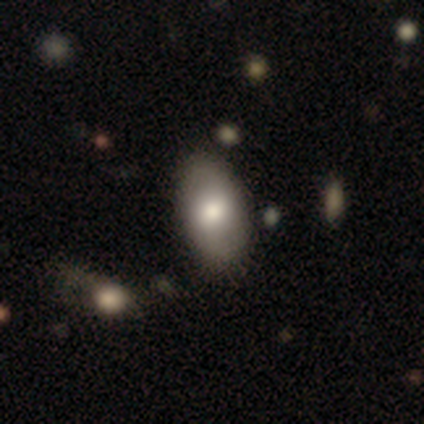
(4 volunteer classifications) Smooth or featured: smooth — 75% (featured or disk — 25%)
How rounded: in between — 100%
Merging: none — 75% (minor disturbance — 25%)